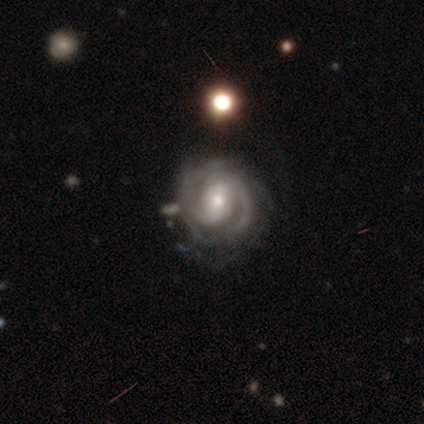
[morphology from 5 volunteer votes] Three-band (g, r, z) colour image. It shows a featured or disk galaxy (100%) with a weak bar (40%, tied with no), 2 (40%, tied with 3) tight (60%) spiral arms (100%) and a small central bulge (60%). Merging: none (40%, tied with minor disturbance).